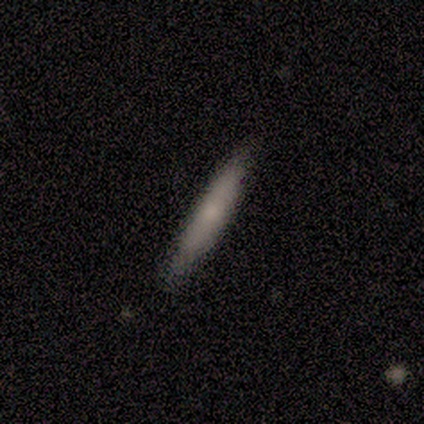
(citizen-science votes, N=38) Smooth or featured? 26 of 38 (68%) said smooth. How rounded? 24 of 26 (92%) said cigar-shaped. Merging? 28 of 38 (74%) said none.